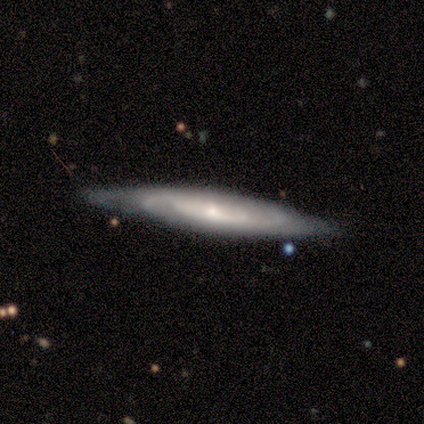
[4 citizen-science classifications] This appears to be a featured or disk galaxy (75%) viewed edge-on (100%) with a rounded central bulge (67%). Merging: none (75%).